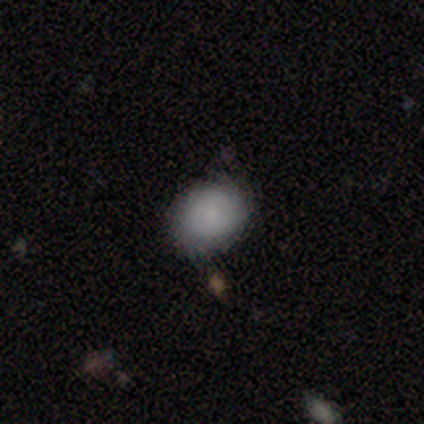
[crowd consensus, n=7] A smooth galaxy with no disk features (71%) that is round (80%).

Vote fractions:
- Smooth or featured? smooth: 71% / featured or disk: 29% / star or artifact: 0%
- How rounded? round: 80% / in between: 20% / cigar-shaped: 0%
- Merging? none: 71% / minor disturbance: 29% / major disturbance: 0% / merger: 0%